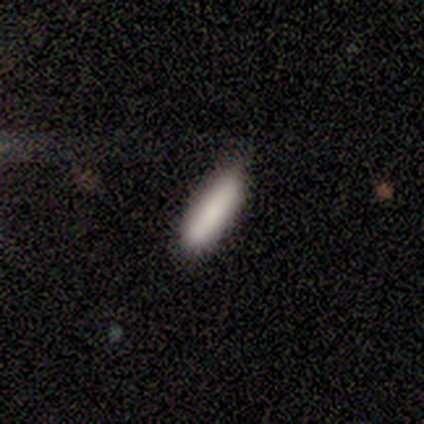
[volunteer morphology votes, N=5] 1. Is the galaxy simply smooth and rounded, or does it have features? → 100% smooth, 0% featured or disk, 0% star or artifact.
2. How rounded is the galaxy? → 80% cigar-shaped, 20% in between, 0% round.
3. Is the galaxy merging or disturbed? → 100% none, 0% minor disturbance, 0% major disturbance, 0% merger.